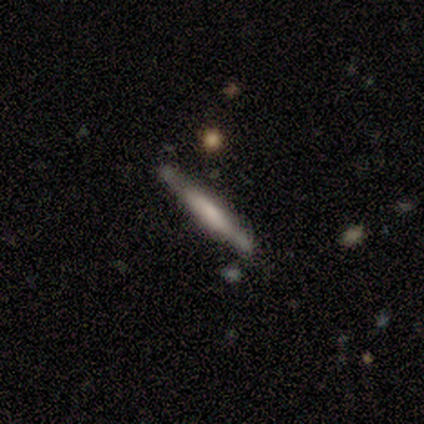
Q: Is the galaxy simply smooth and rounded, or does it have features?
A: smooth — 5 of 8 (62%).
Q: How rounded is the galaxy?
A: cigar-shaped — 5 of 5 (100%).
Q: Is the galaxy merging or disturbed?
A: none — 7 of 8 (88%).